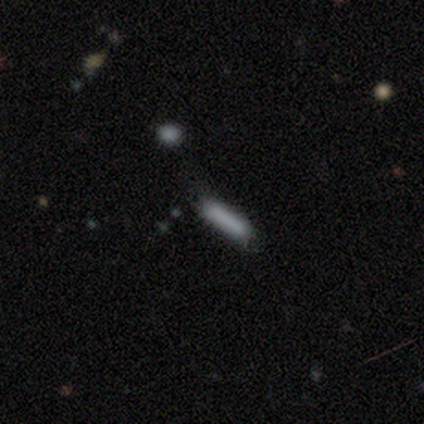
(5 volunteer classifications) Overall: smooth (60%; featured or disk 40%). How rounded: cigar-shaped (100%). Merging: none (60%; minor disturbance 20%).